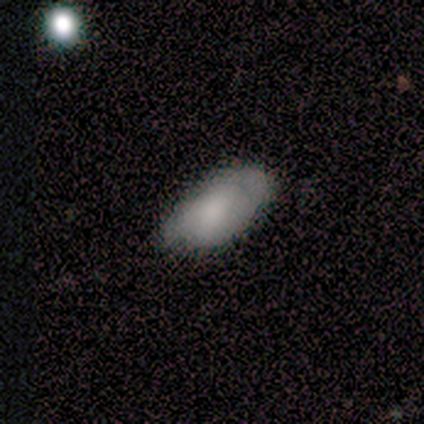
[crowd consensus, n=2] This is clearly a smooth galaxy (100%). How rounded: possibly in between (50%, tied with cigar-shaped). Merging: clearly none (100%).